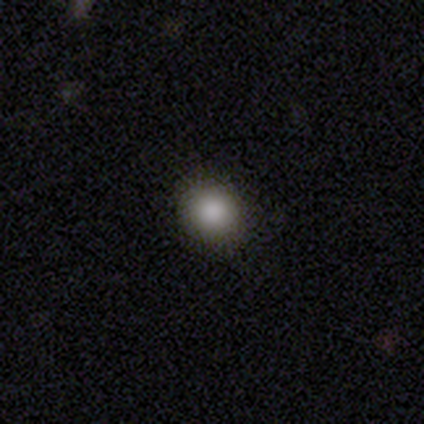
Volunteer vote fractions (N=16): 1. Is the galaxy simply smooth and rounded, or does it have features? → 81% smooth, 12% featured or disk, 6% star or artifact.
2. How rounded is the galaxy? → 85% round, 15% in between, 0% cigar-shaped.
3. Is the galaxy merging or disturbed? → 93% none, 7% major disturbance, 0% minor disturbance, 0% merger.